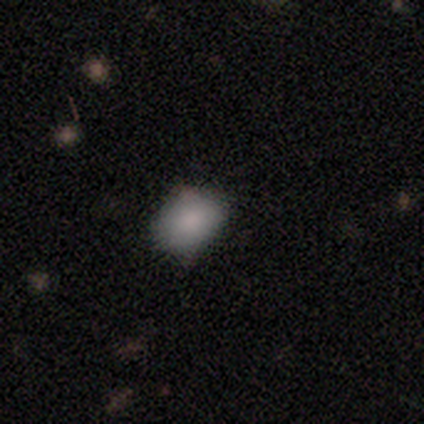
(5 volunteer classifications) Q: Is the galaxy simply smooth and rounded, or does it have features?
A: smooth — 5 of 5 (100%).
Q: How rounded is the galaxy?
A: in between — 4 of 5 (80%).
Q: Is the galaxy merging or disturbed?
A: none — 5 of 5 (100%).